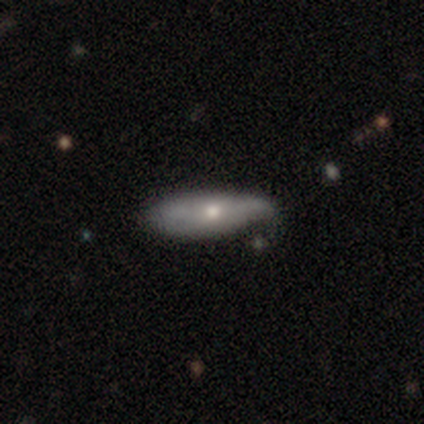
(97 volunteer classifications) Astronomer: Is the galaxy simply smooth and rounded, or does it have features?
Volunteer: smooth — 59% (runner-up: featured or disk, 40%).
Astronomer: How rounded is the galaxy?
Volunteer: in between — 58% (runner-up: cigar-shaped, 42%).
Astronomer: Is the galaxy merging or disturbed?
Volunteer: minor disturbance — 46% (runner-up: none, 44%).